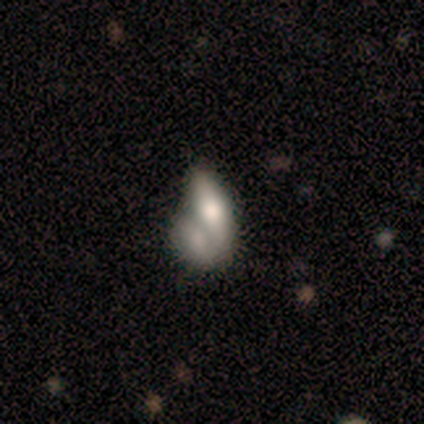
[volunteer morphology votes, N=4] Smooth or featured?
  - smooth: 50% * (tied)
  - featured or disk: 50% * (tied)
  - star or artifact: 0%
How rounded?
  - in between: 100% *
  - round: 0%
  - cigar-shaped: 0%
Merging?
  - none: 50% *
  - minor disturbance: 25%
  - merger: 25%
  - major disturbance: 0%